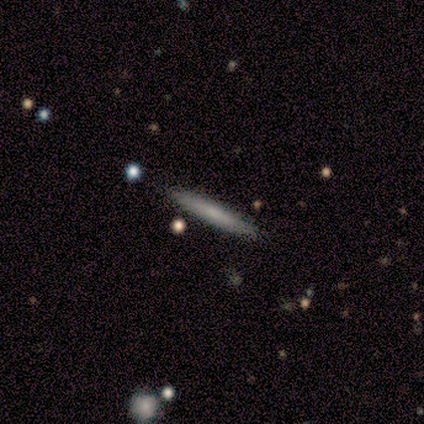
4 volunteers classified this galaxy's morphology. Smooth or featured?
  - smooth: 50% * (tied)
  - featured or disk: 50% * (tied)
  - star or artifact: 0%
How rounded?
  - in between: 50% * (tied)
  - cigar-shaped: 50% * (tied)
  - round: 0%
Merging?
  - none: 100% *
  - minor disturbance: 0%
  - major disturbance: 0%
  - merger: 0%